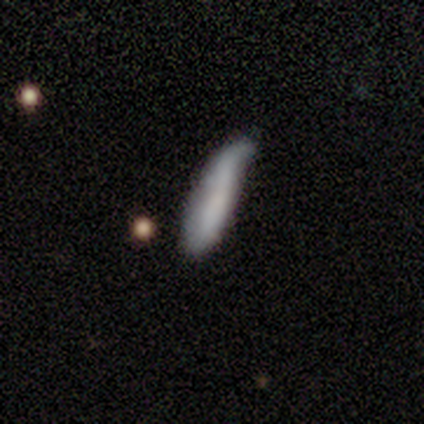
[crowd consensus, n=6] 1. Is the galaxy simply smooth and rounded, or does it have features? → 83% smooth, 17% featured or disk, 0% star or artifact.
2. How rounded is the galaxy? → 100% cigar-shaped, 0% round, 0% in between.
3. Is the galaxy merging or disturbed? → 67% minor disturbance, 17% none, 17% merger, 0% major disturbance.